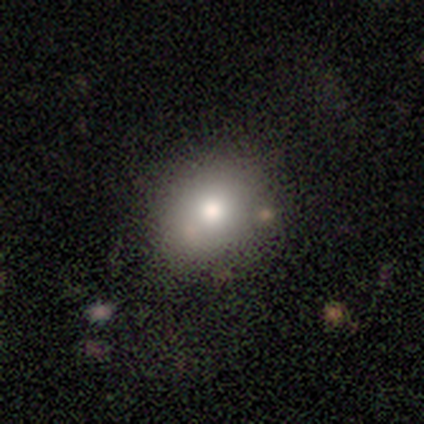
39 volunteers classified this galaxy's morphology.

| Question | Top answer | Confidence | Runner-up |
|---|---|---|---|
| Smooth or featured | smooth | 85% | featured or disk (10%) |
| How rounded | round | 52% | in between (48%) |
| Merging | none | 70% | minor disturbance (24%) |